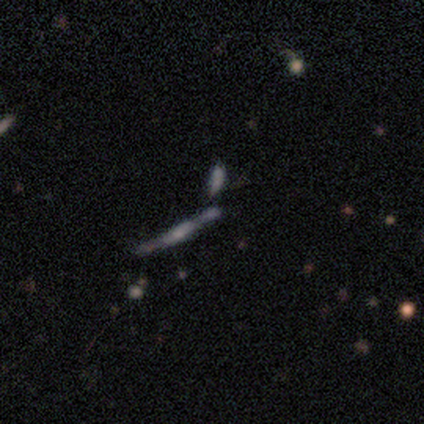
Morphology: type=smooth (40%, tied with featured or disk); roundness=in between (50%, tied with cigar-shaped); merging=none (50%, tied with merger).